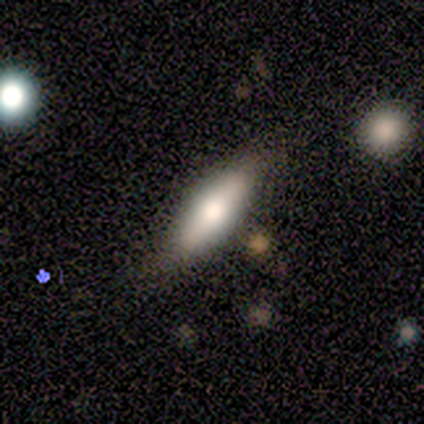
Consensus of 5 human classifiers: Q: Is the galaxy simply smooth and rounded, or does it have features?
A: smooth — 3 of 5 (60%).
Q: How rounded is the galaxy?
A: cigar-shaped — 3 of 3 (100%).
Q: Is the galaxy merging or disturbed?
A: none — 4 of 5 (80%).